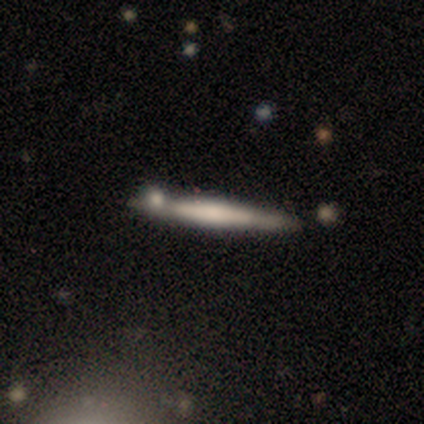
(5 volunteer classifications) Morphology: type=featured or disk (60%); edge-on=yes (100%); edge-on bulge=rounded (67%); merging=none (100%).